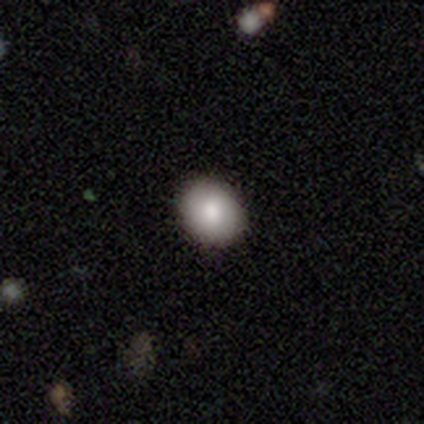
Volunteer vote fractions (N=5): A smooth galaxy with no disk features (100%) that is round (60%).

Vote fractions:
- Smooth or featured? smooth: 100% / featured or disk: 0% / star or artifact: 0%
- How rounded? round: 60% / in between: 40% / cigar-shaped: 0%
- Merging? none: 100% / minor disturbance: 0% / major disturbance: 0% / merger: 0%